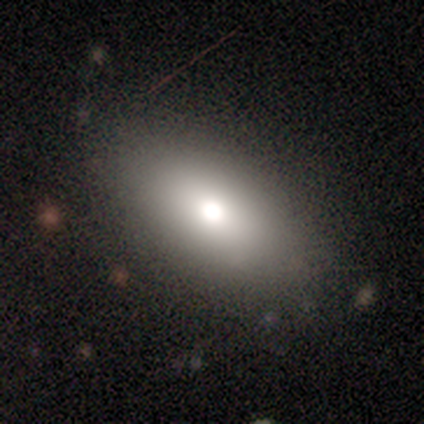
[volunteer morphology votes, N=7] A smooth galaxy with no disk features (100%) that is in between round and cigar-shaped (100%). Merging: none (71%).